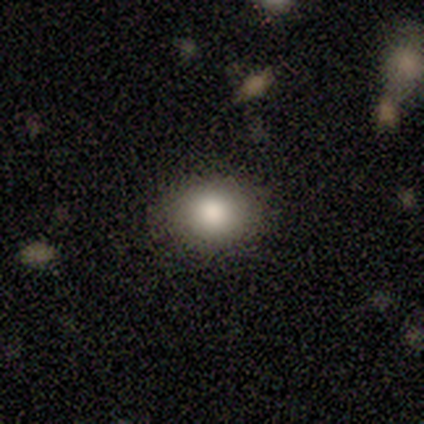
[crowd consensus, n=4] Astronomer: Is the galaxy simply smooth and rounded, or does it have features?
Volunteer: smooth — 75%.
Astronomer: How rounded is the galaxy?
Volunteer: in between — 67%.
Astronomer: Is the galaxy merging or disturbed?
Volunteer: none — 100%.